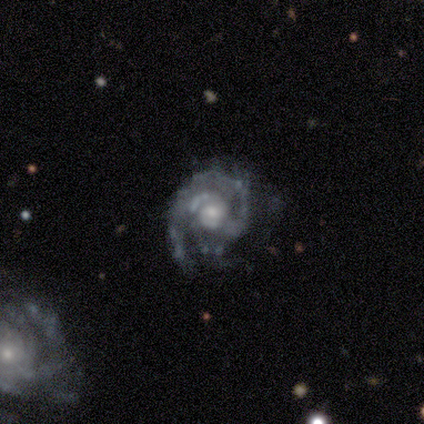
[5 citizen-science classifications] This is clearly a featured or disk galaxy (100%). It is clearly not viewed edge-on (100%). Bar: likely no (60%). Spiral arm pattern: clearly yes (100%). Spiral arm count: clearly 2 (80%). Spiral winding: clearly tight (80%). Central bulge: clearly moderate (80%). Merging: clearly none (80%).